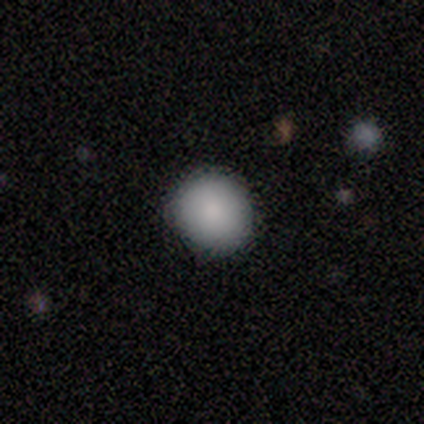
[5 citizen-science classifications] This appears to be a smooth galaxy with no disk features (100%) that is round (100%). Merging: none (80%).